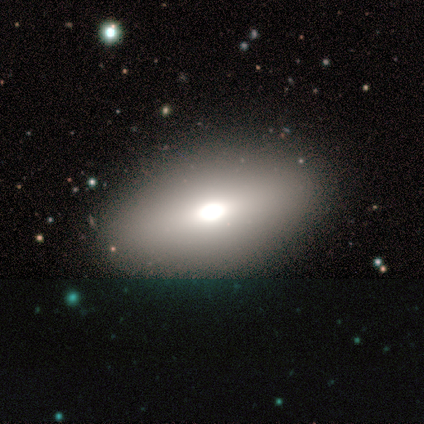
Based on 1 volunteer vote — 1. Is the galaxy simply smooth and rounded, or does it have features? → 100% featured or disk, 0% smooth, 0% star or artifact.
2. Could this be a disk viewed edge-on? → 100% no, 0% yes.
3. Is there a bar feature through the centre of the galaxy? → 100% no, 0% strong, 0% weak.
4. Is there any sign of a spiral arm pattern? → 100% no, 0% yes.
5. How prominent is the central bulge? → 100% moderate, 0% dominant, 0% large, 0% small, 0% none.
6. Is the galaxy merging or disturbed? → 100% none, 0% minor disturbance, 0% major disturbance, 0% merger.